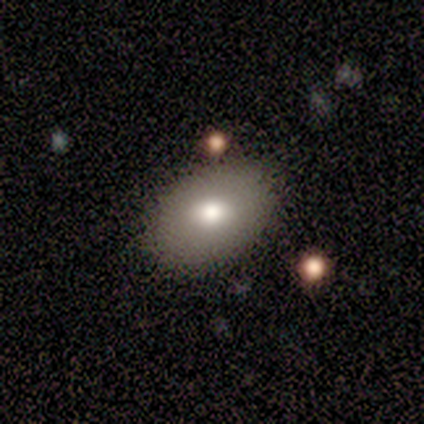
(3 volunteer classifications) Q: Smooth or featured?
A: smooth (100%)
Q: How rounded?
A: in between (67%); runner-up: round (33%)
Q: Merging?
A: none (67%); runner-up: minor disturbance (33%)